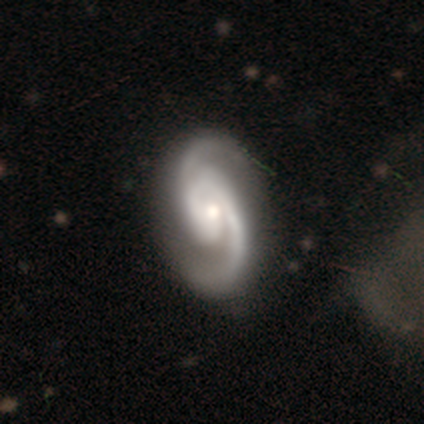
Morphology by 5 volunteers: Overall: featured or disk (80%). Edge-on disk: no (100%). Bar: no (50%; strong 25%). Spiral arms: yes (100%). Spiral arm count: 2 (100%). Spiral winding: medium (75%). Bulge size: moderate (75%). Merging: none (80%).